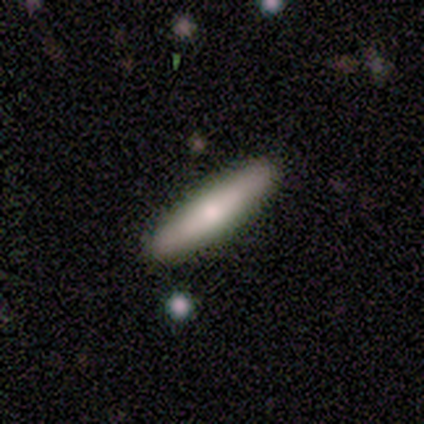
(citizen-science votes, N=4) Volunteers were most divided on "how rounded": cigar-shaped: 67%, in between: 33%, round: 0%. More confident: merging — none (100%); smooth or featured — smooth (75%).